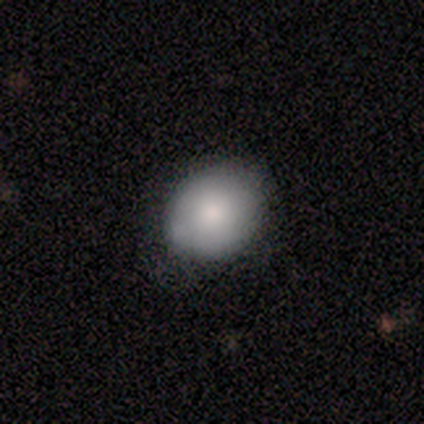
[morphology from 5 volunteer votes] type=smooth (100%); roundness=round (80%); merging=none (100%).